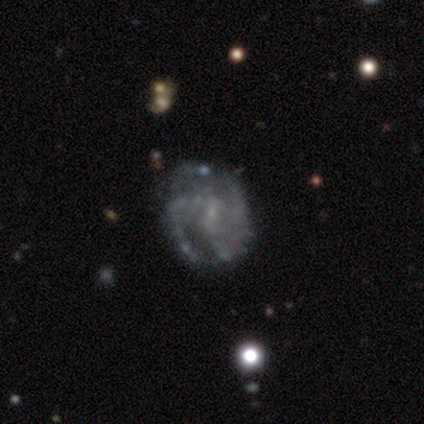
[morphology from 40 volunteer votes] featured or disk 90%, smooth 8%, star or artifact 2%. Down the decision tree: edge-on disk — no (100%); bar — no (50%); spiral arms — yes (92%); spiral arm count — 3 (42%); spiral winding — medium (55%); bulge size — small (67%); merging — none (74%).